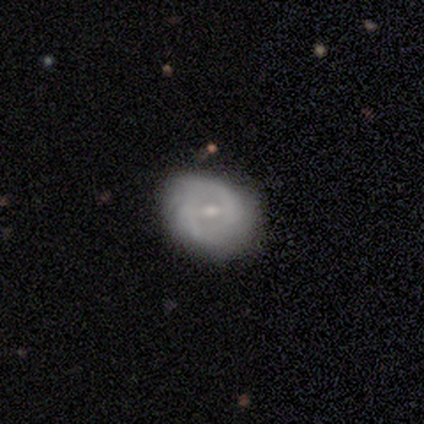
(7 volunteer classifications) Morphology: type=featured or disk (86%); edge-on=no (100%); bar=strong (50%, tied with weak); spiral arms=yes (67%); winding=tight (50%); arm count=2 (100%); bulge=small (100%); merging=none (67%).